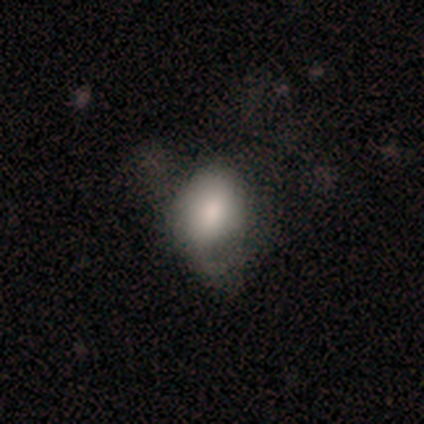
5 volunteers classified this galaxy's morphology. smooth_or_featured: smooth (p=1.00)
how_rounded: in between (p=0.80) [alt: round p=0.20]
merging: none (p=0.40) [tied with: major disturbance p=0.40]